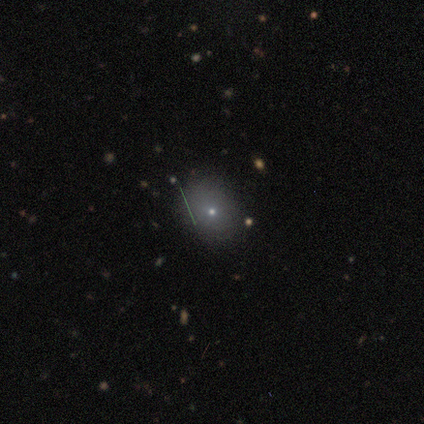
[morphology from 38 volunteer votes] Overall: smooth (61%; star or artifact 21%). How rounded: round (61%; in between 35%). Merging: none (83%).